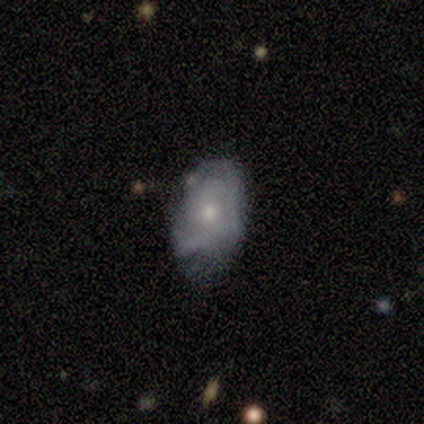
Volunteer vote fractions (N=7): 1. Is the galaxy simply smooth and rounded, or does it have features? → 57% smooth, 43% featured or disk, 0% star or artifact.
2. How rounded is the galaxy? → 100% in between, 0% round, 0% cigar-shaped.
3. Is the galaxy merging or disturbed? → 43% none (tied), 43% minor disturbance (tied), 14% major disturbance, 0% merger.